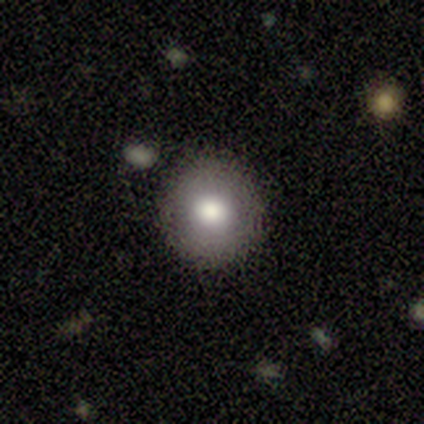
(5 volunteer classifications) Volunteers were most divided on "smooth or featured": smooth: 80%, featured or disk: 20%, star or artifact: 0%. More confident: how rounded — round (100%); merging — none (80%).